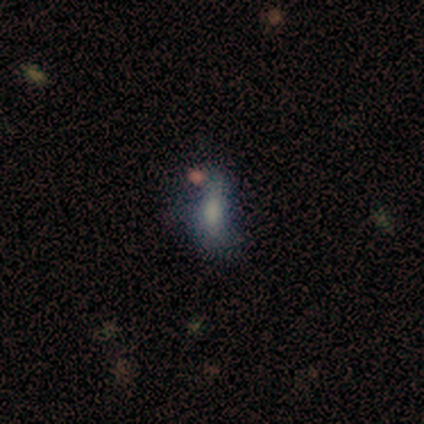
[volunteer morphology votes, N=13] Overall: featured or disk (46%; smooth 31%). Edge-on disk: no (100%). Bar: no (100%). Spiral arms: no (83%). Bulge size: large (33%, tied with small). Merging: minor disturbance (50%; none 30%).